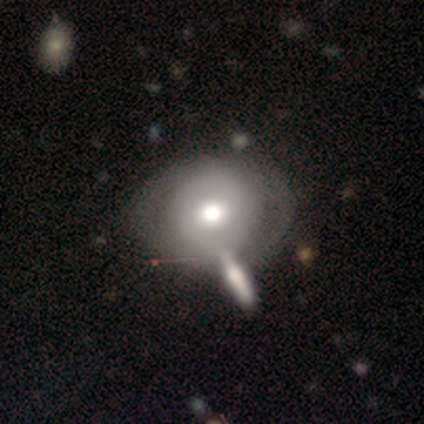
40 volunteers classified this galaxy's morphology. Overall: featured or disk (75%). Edge-on disk: no (100%). Bar: no (70%). Spiral arms: yes (53%; no 47%). Spiral arm count: 2 (50%; can't tell 38%). Spiral winding: tight (69%). Bulge size: moderate (63%; large 23%). Merging: none (38%; minor disturbance 18%).